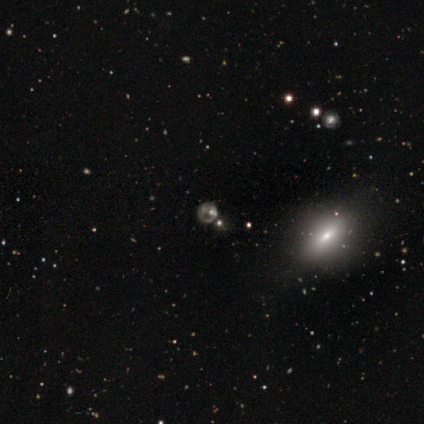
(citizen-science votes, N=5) Smooth or featured?
  - star or artifact: 60% *
  - featured or disk: 40%
  - smooth: 0%